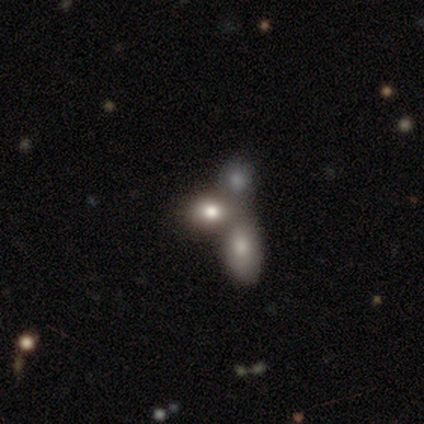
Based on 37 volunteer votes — Overall: smooth (46%; featured or disk 38%). How rounded: in between (53%; round 47%). Merging: merger (55%; none 26%).